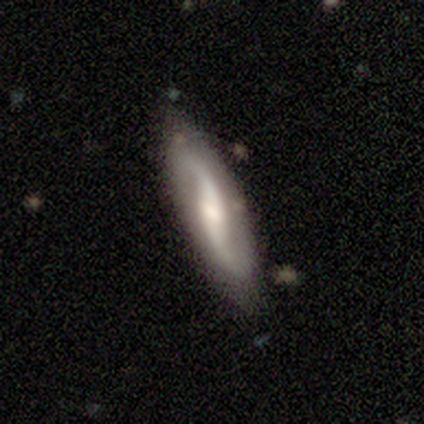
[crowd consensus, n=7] smooth-or-featured: featured or disk: 71% | smooth: 29% | star or artifact: 0%
  disk-edge-on: no: 100% | yes: 0%
    bar: weak: 80% | no: 20% | strong: 0%
    has-spiral-arms: yes: 80% | no: 20%
      spiral-winding: loose: 75% | tight: 25% | medium: 0%
      spiral-arm-count: 2: 100% | 1: 0% | 3: 0% | 4: 0% | more than 4: 0% | can't tell: 0%
    bulge-size: moderate: 80% | small: 20% | dominant: 0% | large: 0% | none: 0%
  merging: none: 71% | major disturbance: 14% | merger: 14% | minor disturbance: 0%